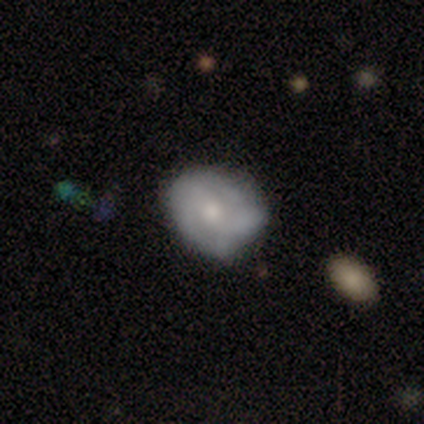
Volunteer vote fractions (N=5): A featured or disk galaxy (100%) with no bar (60%), no spiral arms (60%) and a small central bulge (60%). Merging: minor disturbance (80%).